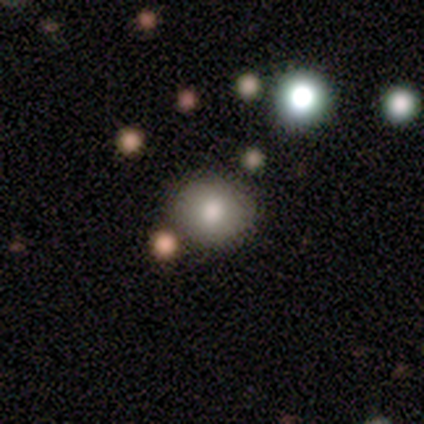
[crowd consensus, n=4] Smooth or featured? 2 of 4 (50%) said smooth. How rounded? 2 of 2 (100%) said round. Merging? 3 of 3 (100%) said none.